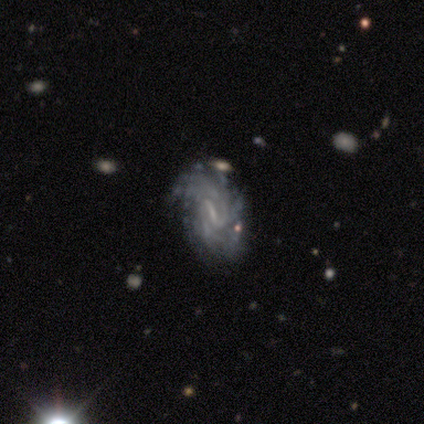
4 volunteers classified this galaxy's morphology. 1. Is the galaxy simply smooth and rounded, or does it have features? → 100% featured or disk, 0% smooth, 0% star or artifact.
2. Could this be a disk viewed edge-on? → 100% no, 0% yes.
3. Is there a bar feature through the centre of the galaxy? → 50% strong (tied), 50% weak (tied), 0% no.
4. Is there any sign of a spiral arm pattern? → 100% yes, 0% no.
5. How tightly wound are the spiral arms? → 75% tight, 25% medium, 0% loose.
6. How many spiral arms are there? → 75% 2, 25% can't tell, 0% 1, 0% 3, 0% 4, 0% more than 4.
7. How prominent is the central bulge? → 50% small (tied), 50% none (tied), 0% dominant, 0% large, 0% moderate.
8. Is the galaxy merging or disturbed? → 75% minor disturbance, 25% none, 0% major disturbance, 0% merger.